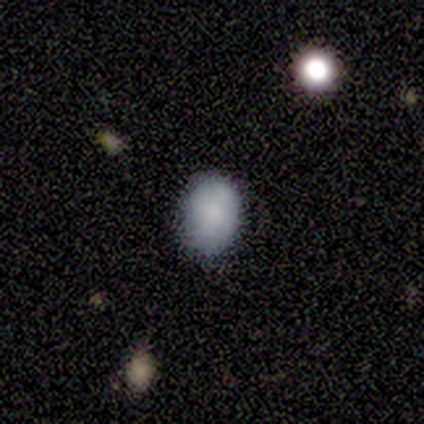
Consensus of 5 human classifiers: Volunteers were most divided on "how rounded": round: 60%, in between: 40%, cigar-shaped: 0%. More confident: smooth or featured — smooth (100%); merging — none (100%).